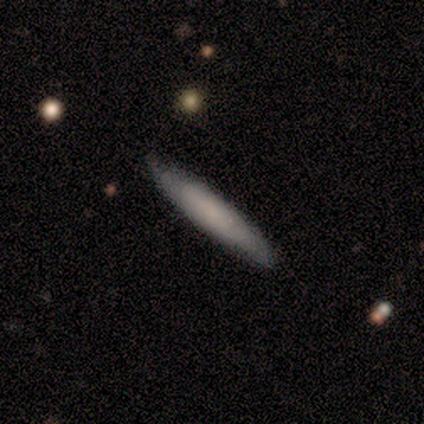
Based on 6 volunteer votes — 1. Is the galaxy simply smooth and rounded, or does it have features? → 83% smooth, 17% featured or disk, 0% star or artifact.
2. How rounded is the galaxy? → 80% cigar-shaped, 20% in between, 0% round.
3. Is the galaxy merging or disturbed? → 67% none, 33% minor disturbance, 0% major disturbance, 0% merger.